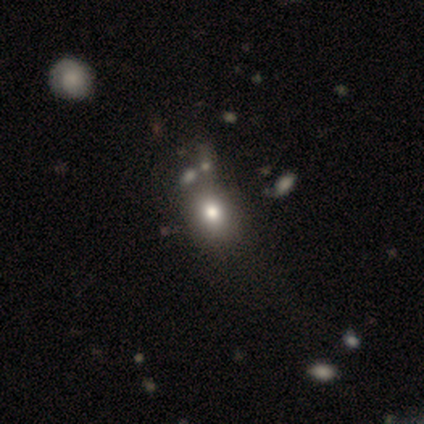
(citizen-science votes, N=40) Morphology: type=smooth (82%); roundness=in between (52%); merging=none (39%).